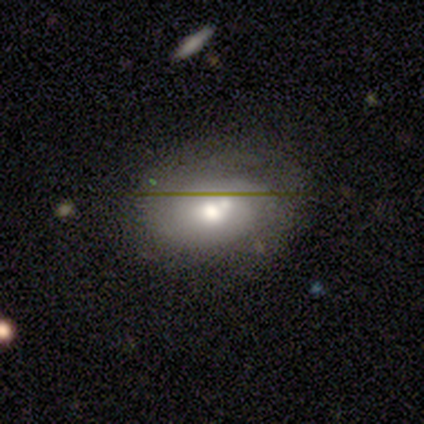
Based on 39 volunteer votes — smooth-or-featured: featured or disk: 46% | smooth: 41% | star or artifact: 13%
  disk-edge-on: no: 89% | yes: 11%
    bar: no: 75% | strong: 19% | weak: 6%
    has-spiral-arms: no: 62% | yes: 38%
    bulge-size: moderate: 44% | large: 38% | small: 12% | dominant: 6% | none: 0%
  merging: none: 53% | minor disturbance: 24% | merger: 21% | major disturbance: 3%